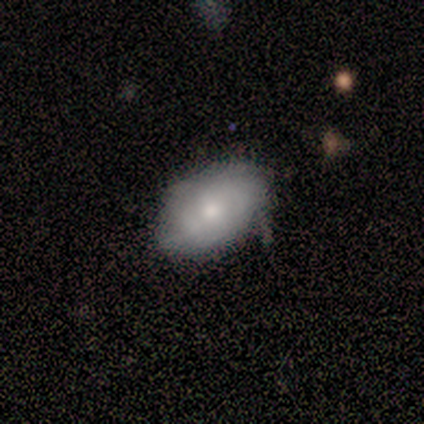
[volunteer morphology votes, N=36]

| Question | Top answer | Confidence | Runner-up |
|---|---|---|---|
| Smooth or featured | smooth | 67% | featured or disk (31%) |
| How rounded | in between | 96% | round (4%) |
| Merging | none | 60% | minor disturbance (40%) |